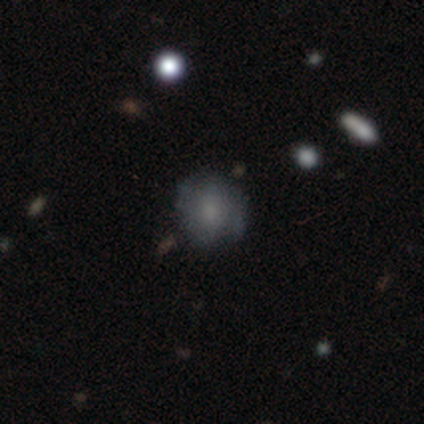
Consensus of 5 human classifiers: smooth-or-featured: featured or disk: 60% | smooth: 20% | star or artifact: 20%
  disk-edge-on: no: 100% | yes: 0%
    bar: no: 100% | strong: 0% | weak: 0%
    has-spiral-arms: no: 67% | yes: 33%
    bulge-size: moderate: 100% | dominant: 0% | large: 0% | small: 0% | none: 0%
  merging: none: 50% | minor disturbance: 25% | major disturbance: 25% | merger: 0%